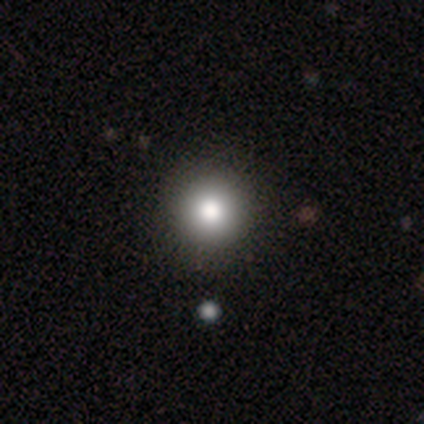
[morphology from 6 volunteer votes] type=smooth (100%); roundness=round (100%); merging=none (83%).